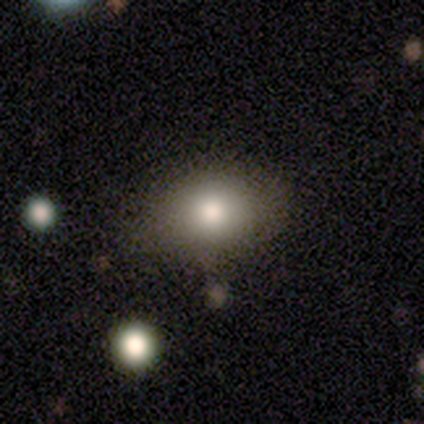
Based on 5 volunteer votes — Volunteers were most divided on "how rounded": round: 60%, in between: 40%, cigar-shaped: 0%. More confident: smooth or featured — smooth (100%); merging — none (100%).